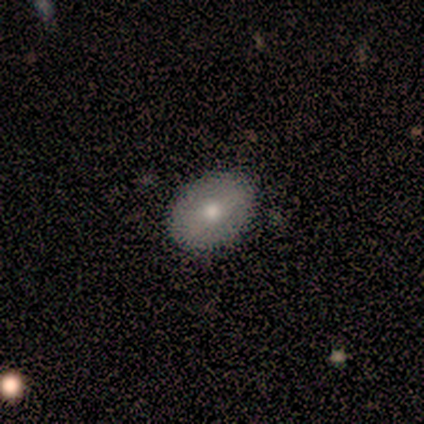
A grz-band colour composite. It shows a smooth galaxy with no disk features (100%) that is in between round and cigar-shaped (75%). Merging: none (100%).